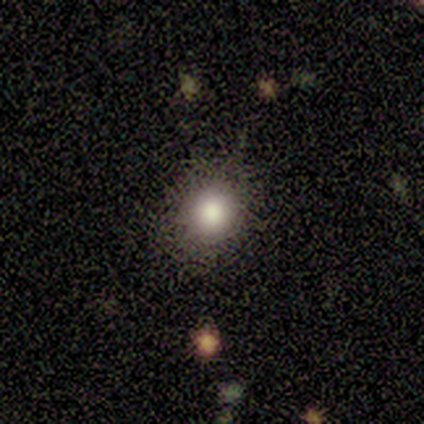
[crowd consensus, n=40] smooth_or_featured: smooth (p=0.65) [alt: star or artifact p=0.23]
how_rounded: round (p=0.88) [alt: in between p=0.12]
merging: none (p=0.81) [alt: minor disturbance p=0.13]